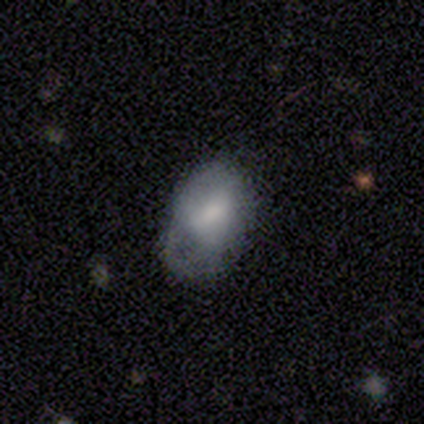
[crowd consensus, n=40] This is possibly a smooth galaxy (55%). How rounded: likely in between (68%). Merging: marginally none (34%, tied with major disturbance).